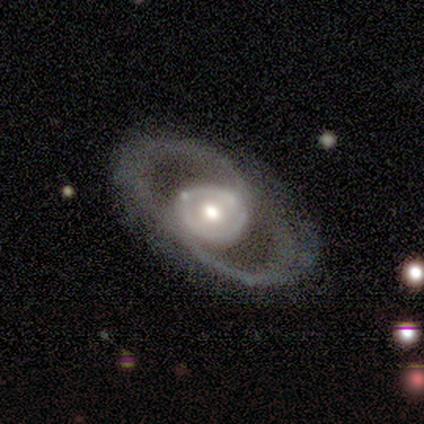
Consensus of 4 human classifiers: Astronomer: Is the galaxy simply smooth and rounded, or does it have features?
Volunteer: featured or disk — 75%.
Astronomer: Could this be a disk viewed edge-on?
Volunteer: no — 67%.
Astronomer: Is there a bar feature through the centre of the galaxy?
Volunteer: strong — 50%, tied with no at 50%.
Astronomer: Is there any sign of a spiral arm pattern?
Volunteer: yes — 50%, tied with no at 50%.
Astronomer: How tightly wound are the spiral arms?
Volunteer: medium — 100%.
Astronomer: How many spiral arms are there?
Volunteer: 2 — 100%.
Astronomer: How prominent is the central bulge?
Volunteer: moderate — 100%.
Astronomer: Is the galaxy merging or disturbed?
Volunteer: none — 50%, tied with minor disturbance at 50%.